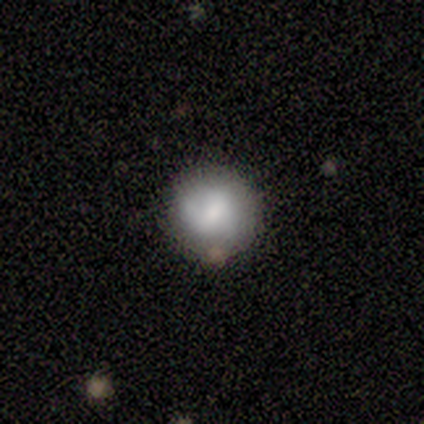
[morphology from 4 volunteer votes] Volunteers were most divided on "smooth or featured": smooth: 75%, featured or disk: 25%, star or artifact: 0%. More confident: how rounded — round (100%); merging — none (75%).